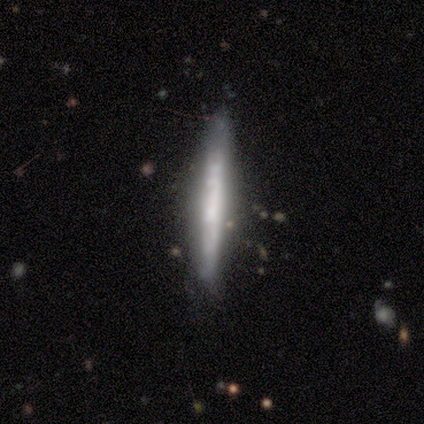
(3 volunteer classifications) Smooth or featured?
  - smooth: 100% *
  - featured or disk: 0%
  - star or artifact: 0%
How rounded?
  - cigar-shaped: 100% *
  - round: 0%
  - in between: 0%
Merging?
  - none: 100% *
  - minor disturbance: 0%
  - major disturbance: 0%
  - merger: 0%